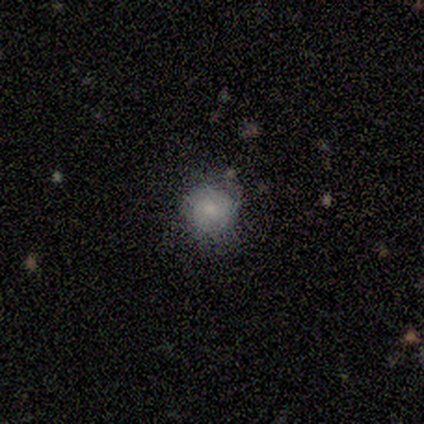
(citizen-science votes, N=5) This appears to be a smooth galaxy with no disk features (60%) that is round (100%). Merging: none (80%).